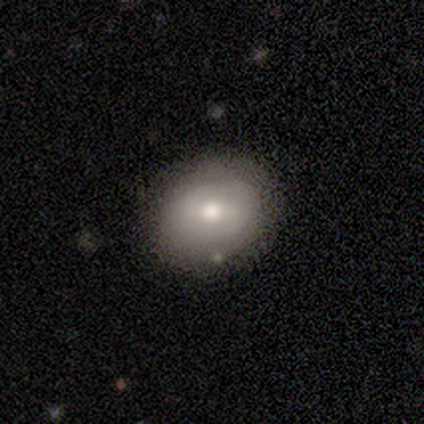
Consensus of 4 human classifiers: Volunteers were most divided on "smooth or featured" (2-way tie): smooth: 50%, featured or disk: 50%, star or artifact: 0%. More confident: how rounded — round (100%); merging — none (50%).